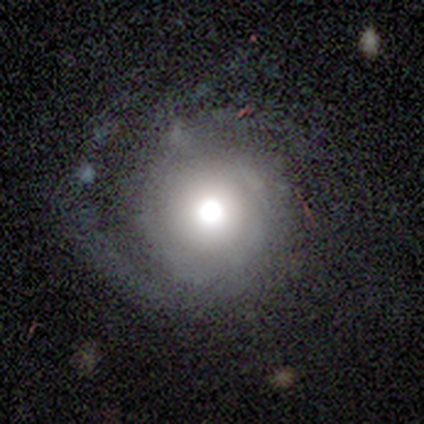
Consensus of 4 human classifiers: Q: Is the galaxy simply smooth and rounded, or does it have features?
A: smooth — 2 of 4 (50%).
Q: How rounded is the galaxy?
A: round — 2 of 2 (100%).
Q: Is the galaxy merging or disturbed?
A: none — 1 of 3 (33%, tied with minor disturbance and major disturbance).